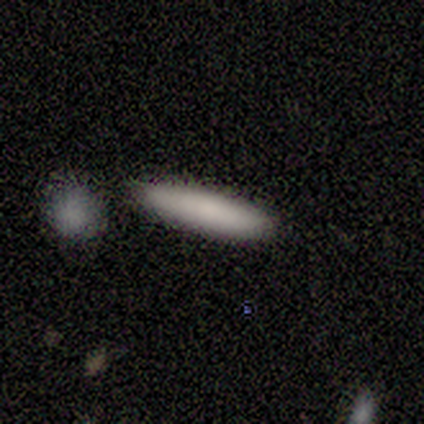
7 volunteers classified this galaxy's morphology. Smooth or featured? 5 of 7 (71%) said smooth. How rounded? 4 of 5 (80%) said cigar-shaped. Merging? 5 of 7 (71%) said none.